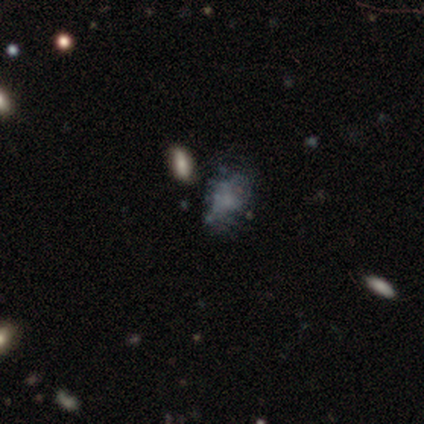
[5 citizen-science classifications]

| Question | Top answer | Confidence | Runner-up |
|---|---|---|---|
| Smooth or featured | featured or disk | 60% | star or artifact (40%) |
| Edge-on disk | no | 100% | — |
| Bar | no | 100% | — |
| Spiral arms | no | 100% | — |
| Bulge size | none | 100% | — |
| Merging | none | 67% | merger (33%) |